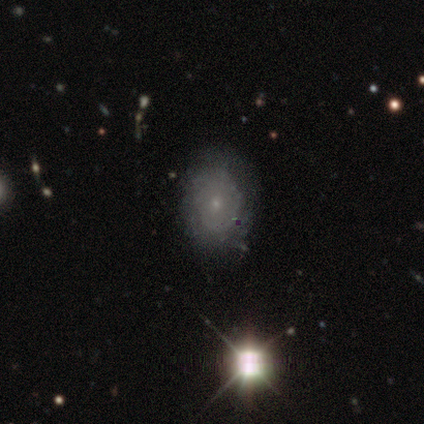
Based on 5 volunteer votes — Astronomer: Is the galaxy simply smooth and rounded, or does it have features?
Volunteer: smooth — 40%, tied with featured or disk at 40%.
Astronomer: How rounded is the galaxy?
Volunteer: round — 50%, tied with in between at 50%.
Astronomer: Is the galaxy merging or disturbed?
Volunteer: none — 50%.